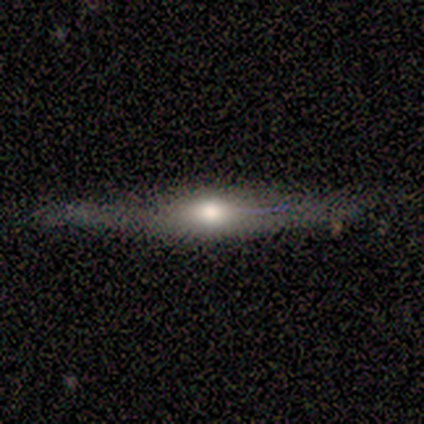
Smooth or featured?
  - featured or disk: 100% *
  - smooth: 0%
  - star or artifact: 0%
Edge-on disk?
  - yes: 100% *
  - no: 0%
Edge-on bulge?
  - rounded: 100% *
  - boxy: 0%
  - none: 0%
Merging?
  - none: 100% *
  - minor disturbance: 0%
  - major disturbance: 0%
  - merger: 0%